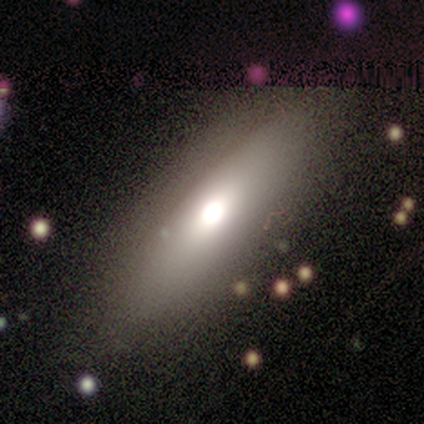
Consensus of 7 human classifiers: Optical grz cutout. It shows a smooth galaxy with no disk features (57%) that is cigar-shaped (75%). Merging: none (67%).